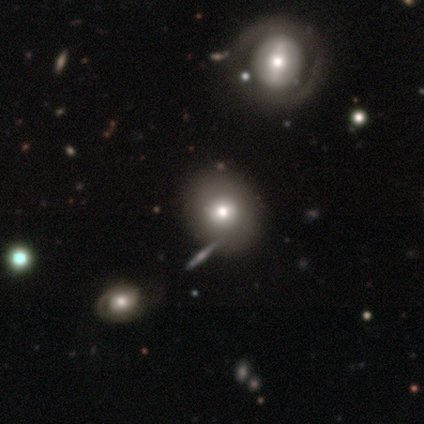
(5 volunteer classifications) A smooth galaxy with no disk features (80%) that is round (75%).

Vote fractions:
- Smooth or featured? smooth: 80% / featured or disk: 20% / star or artifact: 0%
- How rounded? round: 75% / in between: 25% / cigar-shaped: 0%
- Merging? none: 40% / minor disturbance: 20% / major disturbance: 20% / merger: 20%